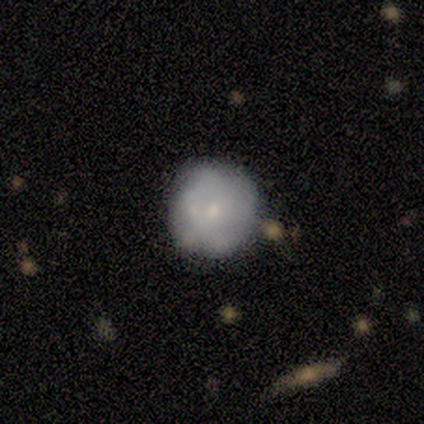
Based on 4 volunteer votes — Volunteers were most divided on "smooth or featured" (2-way tie): smooth: 50%, featured or disk: 50%, star or artifact: 0%. More confident: how rounded — round (100%); merging — none (100%).